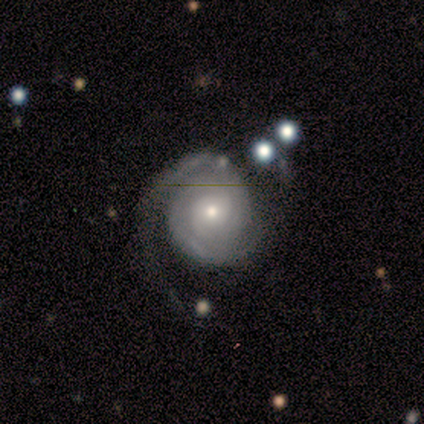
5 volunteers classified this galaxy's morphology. Volunteers were most divided on "spiral arm count" (2-way tie): 1: 40%, can't tell: 40%, 2: 20%, 3: 0%, 4: 0%, more than 4: 0%. More confident: smooth or featured — featured or disk (100%); edge-on disk — no (100%); spiral arms — yes (100%); spiral winding — tight (100%); bar — no (80%); bulge size — small (80%); merging — none (60%).